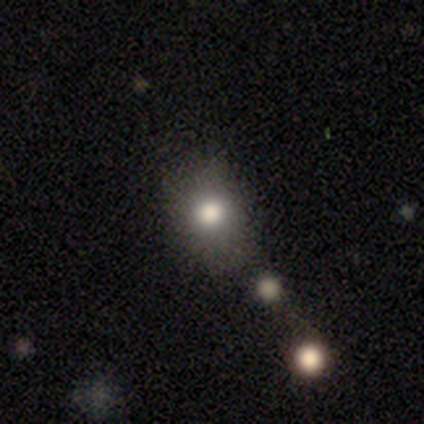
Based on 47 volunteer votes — Overall: smooth (72%). How rounded: round (71%). Merging: none (72%).